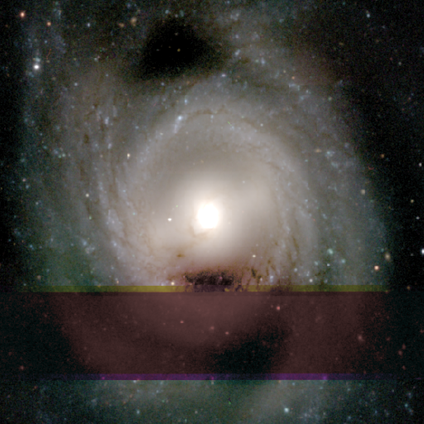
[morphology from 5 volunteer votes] Smooth or featured? 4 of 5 (80%) said featured or disk. Edge-on disk? 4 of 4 (100%) said no. Bar? 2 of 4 (50%) said no. Spiral arms? 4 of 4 (100%) said yes. Spiral winding? 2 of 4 (50%) said tight. Spiral arm count? 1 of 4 (25%, tied with 3, 4 and can't tell) said 2. Bulge size? 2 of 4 (50%, tied with small) said moderate. Merging? 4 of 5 (80%) said none.